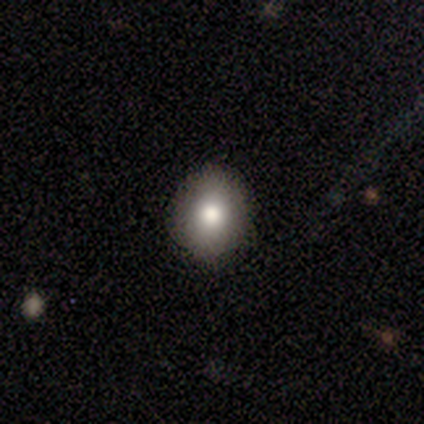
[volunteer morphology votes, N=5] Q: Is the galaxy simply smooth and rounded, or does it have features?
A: smooth — 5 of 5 (100%).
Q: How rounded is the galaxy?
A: in between — 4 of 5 (80%).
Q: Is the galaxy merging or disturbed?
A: none — 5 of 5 (100%).